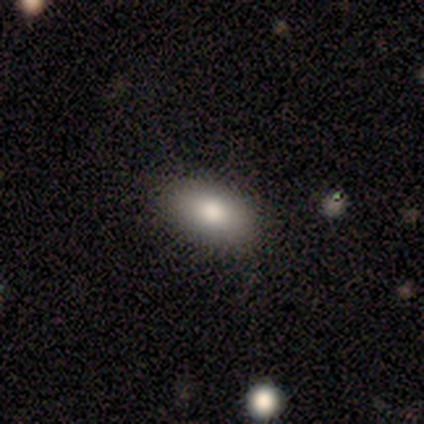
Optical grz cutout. It shows a smooth galaxy with no disk features (100%) that is in between round and cigar-shaped (100%). Merging: none (100%).